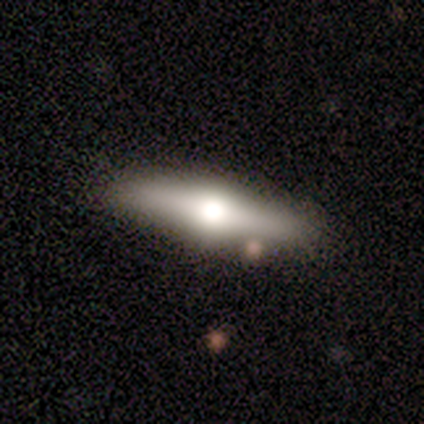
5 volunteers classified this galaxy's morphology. smooth_or_featured: smooth (p=0.80) [alt: featured or disk p=0.20]
how_rounded: cigar-shaped (p=1.00)
merging: none (p=1.00)